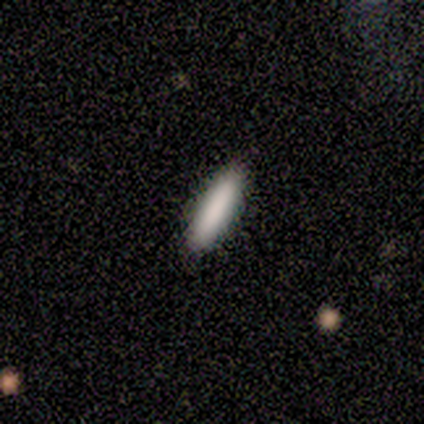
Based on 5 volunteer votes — Q: Smooth or featured?
A: smooth (80%); runner-up: featured or disk (20%)
Q: How rounded?
A: cigar-shaped (100%)
Q: Merging?
A: none (100%)